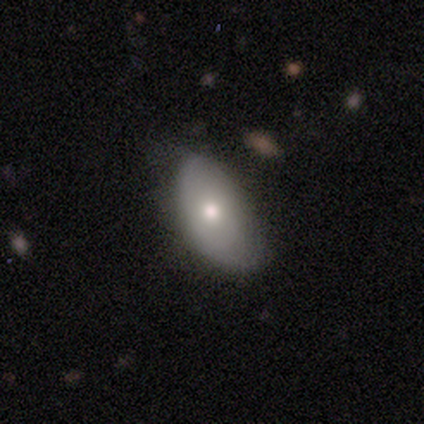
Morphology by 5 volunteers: A smooth galaxy with no disk features (60%) that is in between round and cigar-shaped (100%).

Vote fractions:
- Smooth or featured? smooth: 60% / featured or disk: 40% / star or artifact: 0%
- How rounded? in between: 100% / round: 0% / cigar-shaped: 0%
- Merging? minor disturbance: 80% / none: 20% / major disturbance: 0% / merger: 0%